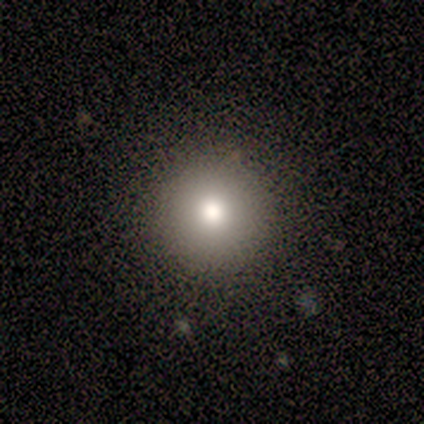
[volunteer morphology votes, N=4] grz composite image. It shows a smooth galaxy with no disk features (50%, tied with featured or disk) that is round (100%). Merging: none (100%).